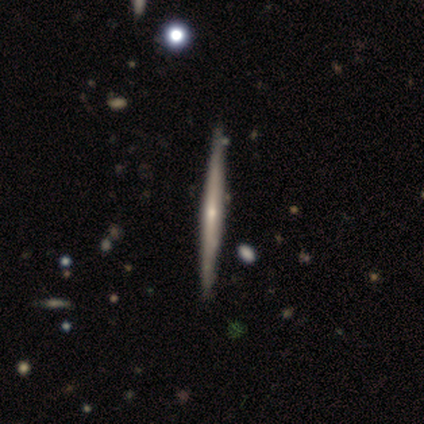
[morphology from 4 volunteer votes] Smooth or featured?
  - smooth: 50% * (tied)
  - featured or disk: 50% * (tied)
  - star or artifact: 0%
How rounded?
  - cigar-shaped: 100% *
  - round: 0%
  - in between: 0%
Merging?
  - none: 100% *
  - minor disturbance: 0%
  - major disturbance: 0%
  - merger: 0%